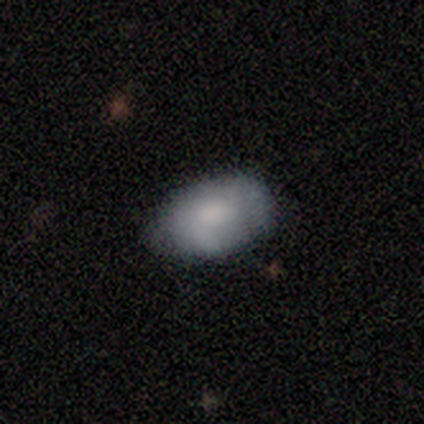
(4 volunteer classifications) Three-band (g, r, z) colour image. It shows a smooth galaxy with no disk features (100%) that is in between round and cigar-shaped (100%). Merging: none (50%, tied with minor disturbance).